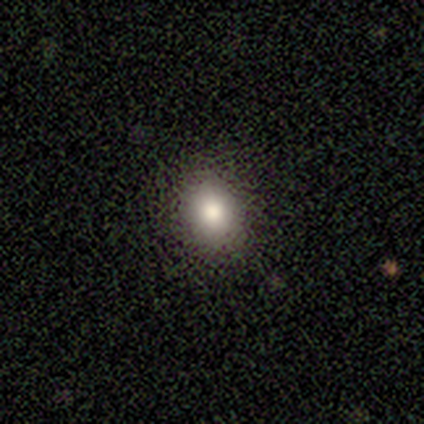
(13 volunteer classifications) A smooth galaxy with no disk features (85%) that is round (73%). Merging: none (92%).